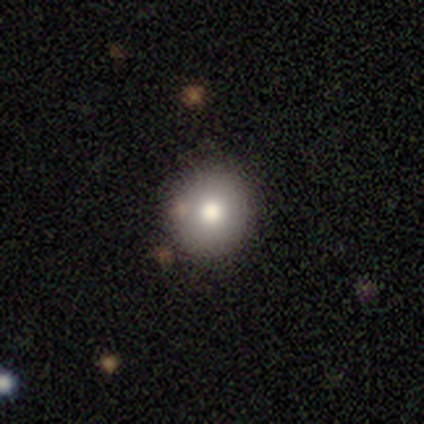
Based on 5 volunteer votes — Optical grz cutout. It shows a smooth galaxy with no disk features (80%) that is round (75%). Merging: none (50%, tied with minor disturbance).